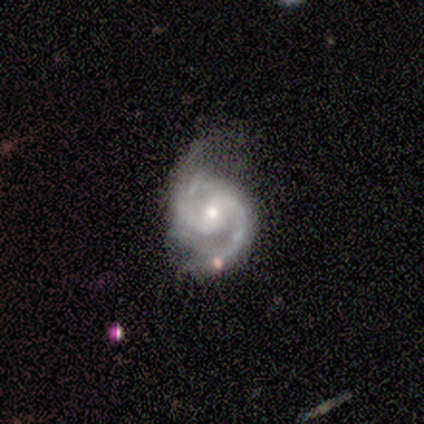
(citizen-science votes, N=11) Overall: featured or disk (91%). Edge-on disk: no (100%). Bar: no (60%; weak 30%). Spiral arms: yes (100%). Spiral arm count: 2 (100%). Spiral winding: medium (70%). Bulge size: moderate (50%, tied with small). Merging: none (64%).